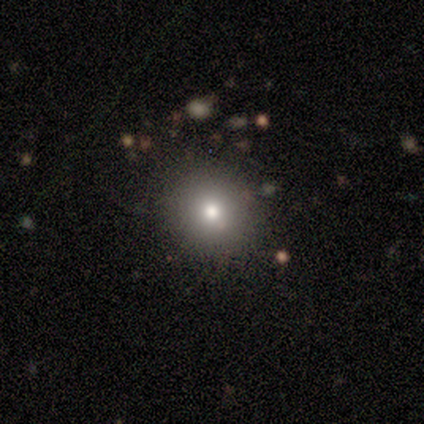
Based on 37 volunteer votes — This appears to be a smooth galaxy with no disk features (78%) that is round (83%). Merging: none (84%).